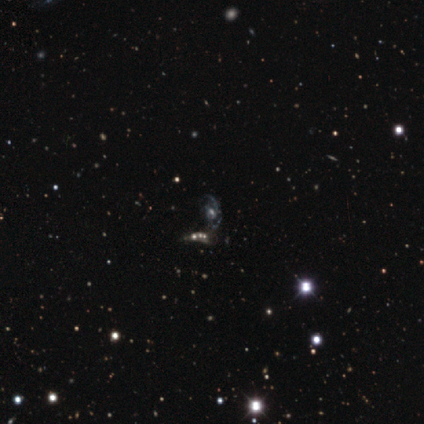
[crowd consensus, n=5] This is likely a featured or disk galaxy (60%). It is clearly not viewed edge-on (100%). Bar: likely no (67%). Spiral arm pattern: likely no (67%). Central bulge: marginally large (33%, tied with moderate and small). Merging: clearly none (100%).